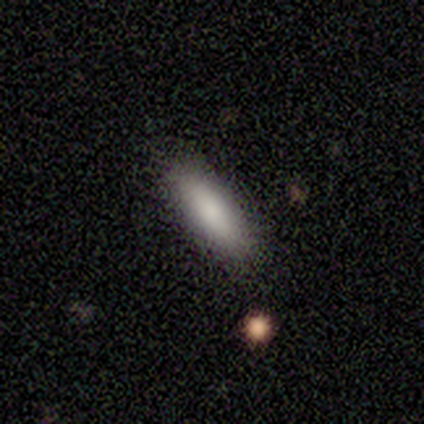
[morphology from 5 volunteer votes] Smooth or featured?
  - smooth: 80% *
  - star or artifact: 20%
  - featured or disk: 0%
How rounded?
  - in between: 50% * (tied)
  - cigar-shaped: 50% * (tied)
  - round: 0%
Merging?
  - none: 75% *
  - minor disturbance: 25%
  - major disturbance: 0%
  - merger: 0%